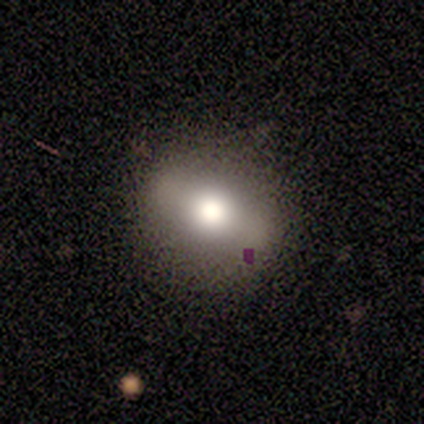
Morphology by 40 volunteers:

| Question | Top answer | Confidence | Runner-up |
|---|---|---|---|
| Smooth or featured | smooth | 57% | featured or disk (35%) |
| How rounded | round | 61% | in between (39%) |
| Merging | none | 62% | minor disturbance (8%) |